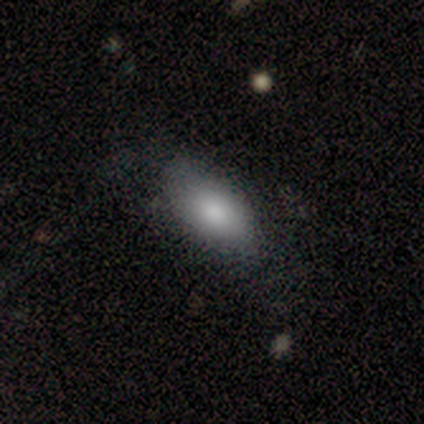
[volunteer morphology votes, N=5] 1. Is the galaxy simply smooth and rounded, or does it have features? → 100% smooth, 0% featured or disk, 0% star or artifact.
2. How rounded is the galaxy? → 100% in between, 0% round, 0% cigar-shaped.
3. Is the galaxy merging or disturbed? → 80% none, 20% major disturbance, 0% minor disturbance, 0% merger.